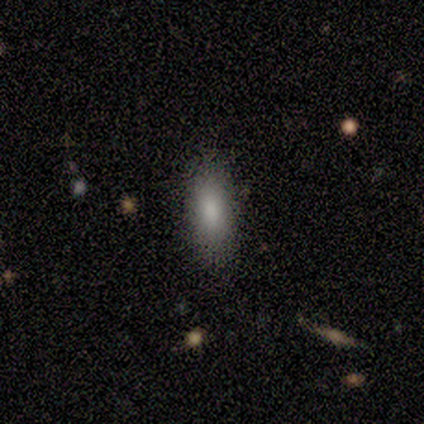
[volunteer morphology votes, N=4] Smooth or featured: smooth — 100%
How rounded: in between — 75% (cigar-shaped — 25%)
Merging: none — 100%